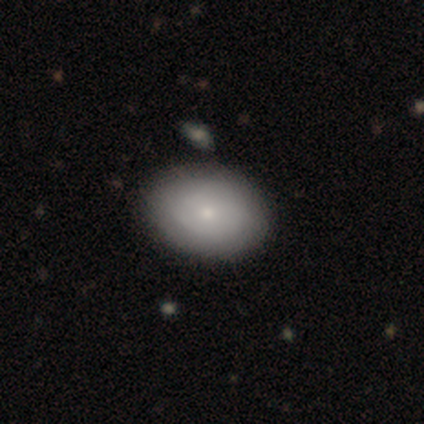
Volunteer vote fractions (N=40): Smooth or featured? smooth (80%)
How rounded? in between (88%)
Merging? none (62%)